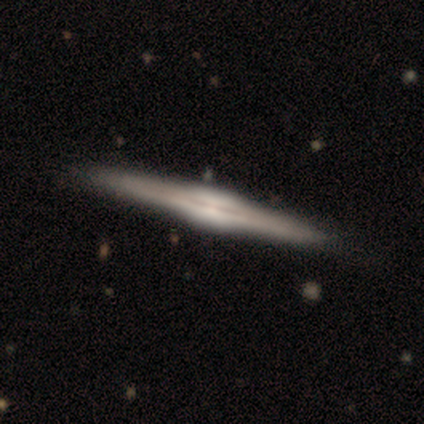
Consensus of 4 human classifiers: featured or disk 75%, star or artifact 25%, smooth 0%. Down the decision tree: edge-on disk — yes (100%); edge-on bulge — rounded (67%); merging — none (100%).